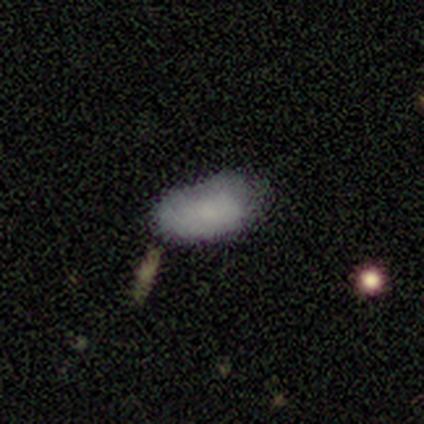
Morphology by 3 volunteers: Q: Smooth or featured?
A: smooth (100%)
Q: How rounded?
A: in between (100%)
Q: Merging?
A: none (67%); runner-up: minor disturbance (33%)